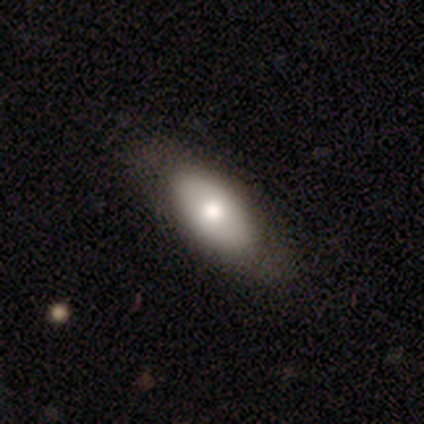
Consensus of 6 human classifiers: Smooth or featured? smooth (50%, tied with featured or disk)
How rounded? in between (67%)
Merging? none (83%)